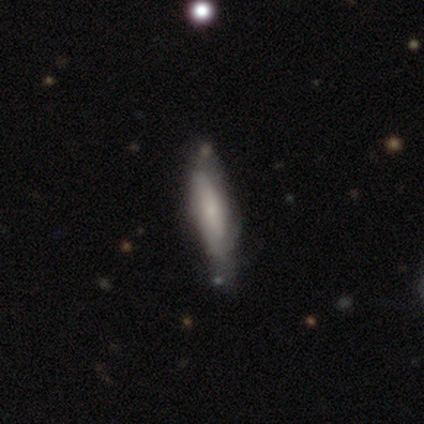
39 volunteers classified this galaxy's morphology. Smooth or featured?
  - smooth: 49% *
  - featured or disk: 46%
  - star or artifact: 5%
How rounded?
  - cigar-shaped: 63% *
  - in between: 37%
  - round: 0%
Merging?
  - none: 70% *
  - minor disturbance: 19%
  - major disturbance: 5%
  - merger: 5%